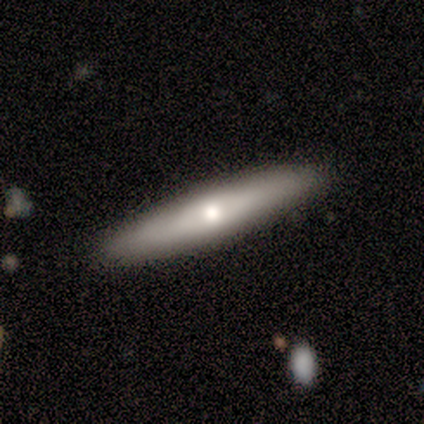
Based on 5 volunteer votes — Morphology: type=smooth (60%); roundness=cigar-shaped (67%); merging=none (100%).